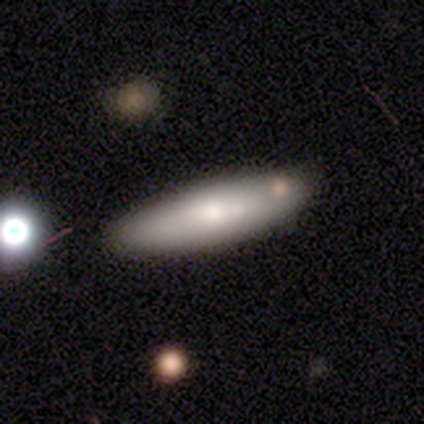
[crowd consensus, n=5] Smooth or featured?
  - smooth: 60% *
  - featured or disk: 40%
  - star or artifact: 0%
How rounded?
  - in between: 67% *
  - cigar-shaped: 33%
  - round: 0%
Merging?
  - none: 80% *
  - minor disturbance: 20%
  - major disturbance: 0%
  - merger: 0%